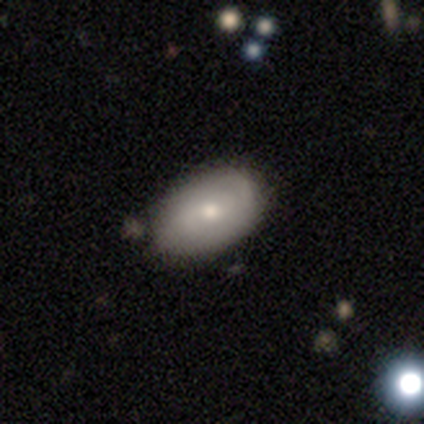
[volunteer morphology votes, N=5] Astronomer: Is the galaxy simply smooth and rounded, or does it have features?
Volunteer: smooth — 100%.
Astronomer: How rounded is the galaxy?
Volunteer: in between — 80%.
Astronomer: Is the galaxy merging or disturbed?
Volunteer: minor disturbance — 60% (runner-up: none, 40%).